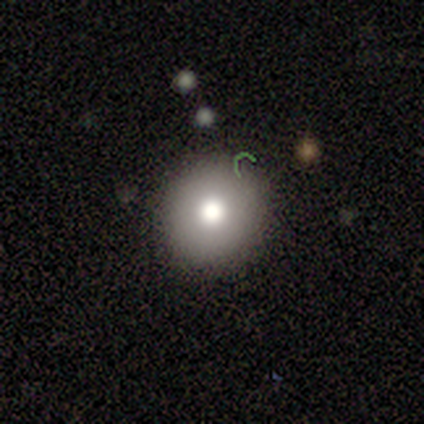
A smooth galaxy with no disk features (60%) that is round (100%). Merging: none (100%).